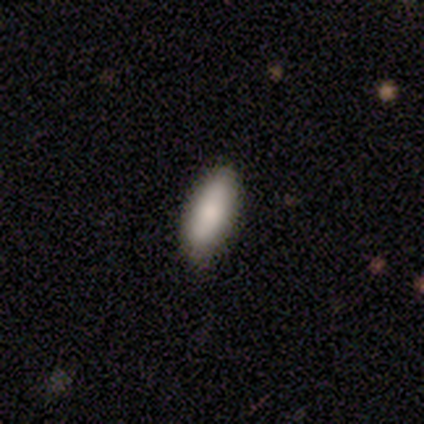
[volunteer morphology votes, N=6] Smooth or featured? smooth (100%)
How rounded? in between (67%)
Merging? none (83%)